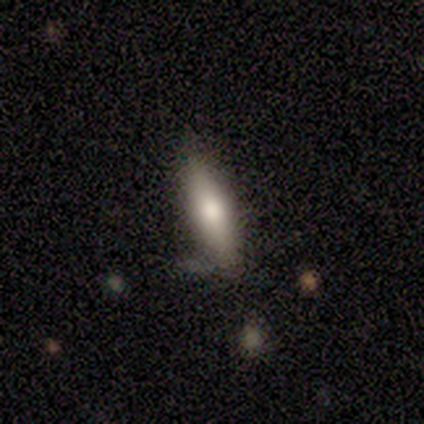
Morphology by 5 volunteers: smooth_or_featured: smooth (p=1.00)
how_rounded: cigar-shaped (p=0.60) [alt: in between p=0.40]
merging: minor disturbance (p=0.60) [alt: none p=0.40]